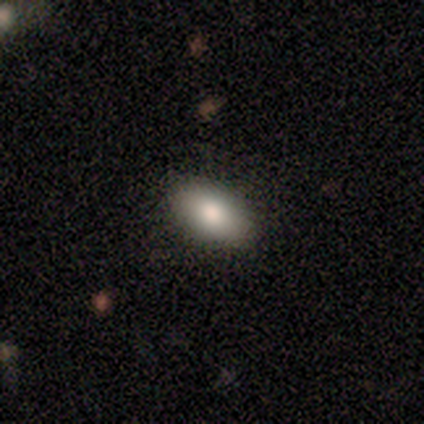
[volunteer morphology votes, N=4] A smooth galaxy with no disk features (75%) that is in between round and cigar-shaped (100%). Merging: none (100%).